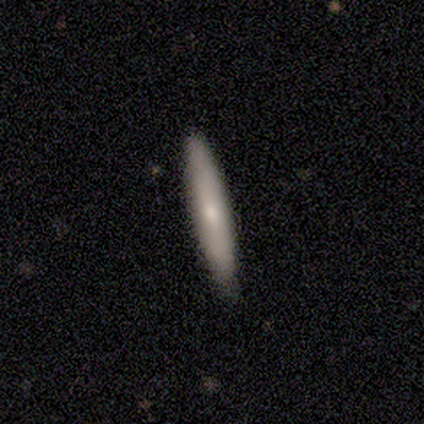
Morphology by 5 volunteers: This appears to be a smooth galaxy with no disk features (60%) that is cigar-shaped (100%). Merging: none (100%).